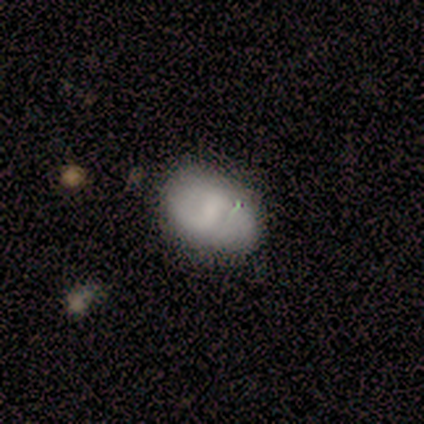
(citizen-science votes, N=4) A featured or disk galaxy (50%, tied with star or artifact) with a weak bar (100%), 2 (100%) medium (100%) spiral arms (50%, tied with no) and a moderate central bulge (100%).

Vote fractions:
- Smooth or featured? featured or disk: 50% (tied) / star or artifact: 50% (tied) / smooth: 0%
- Edge-on disk? no: 100% / yes: 0%
- Bar? weak: 100% / strong: 0% / no: 0%
- Spiral arms? yes: 50% (tied) / no: 50% (tied)
- Spiral winding? medium: 100% / tight: 0% / loose: 0%
- Spiral arm count? 2: 100% / 1: 0% / 3: 0% / 4: 0% / more than 4: 0% / can't tell: 0%
- Bulge size? moderate: 100% / dominant: 0% / large: 0% / small: 0% / none: 0%
- Merging? none: 100% / minor disturbance: 0% / major disturbance: 0% / merger: 0%